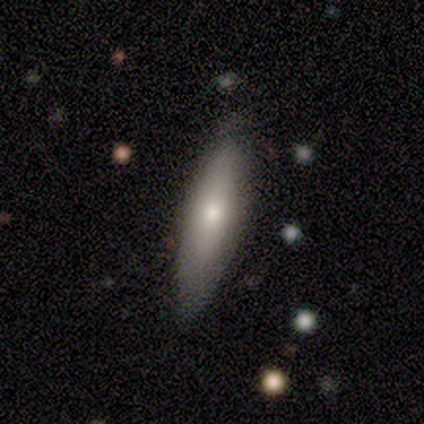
Q: Smooth or featured?
A: smooth (69%); runner-up: featured or disk (31%)
Q: How rounded?
A: cigar-shaped (56%); runner-up: in between (44%)
Q: Merging?
A: none (77%); runner-up: minor disturbance (23%)